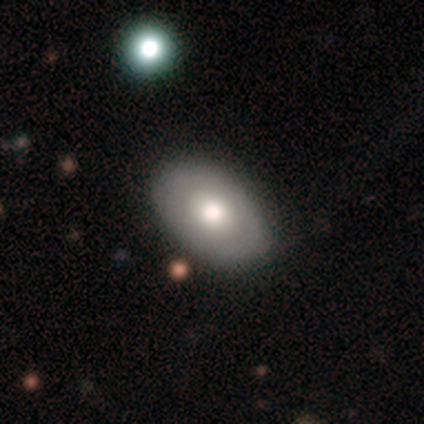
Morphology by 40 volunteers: smooth_or_featured: smooth (p=0.55) [alt: featured or disk p=0.40]
how_rounded: in between (p=0.91) [alt: round p=0.09]
merging: none (p=0.92) [alt: minor disturbance p=0.08]